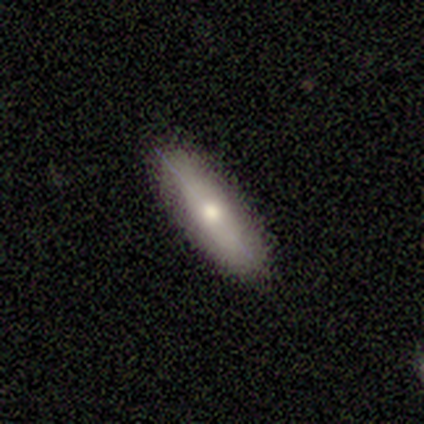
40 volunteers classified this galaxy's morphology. Smooth or featured: smooth — 65% (featured or disk — 35%)
How rounded: in between — 50% (cigar-shaped — 46%)
Merging: none — 88% (minor disturbance — 8%)